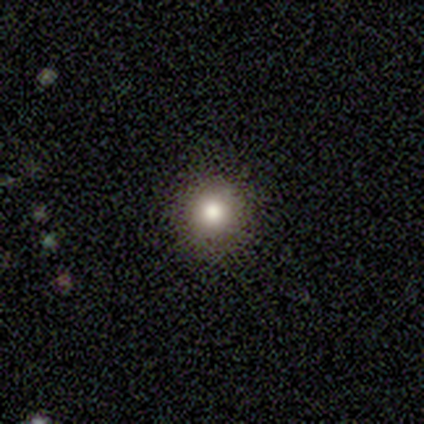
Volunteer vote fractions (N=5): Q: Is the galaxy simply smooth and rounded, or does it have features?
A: smooth — 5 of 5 (100%).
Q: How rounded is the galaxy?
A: round — 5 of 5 (100%).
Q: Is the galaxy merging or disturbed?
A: none — 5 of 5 (100%).